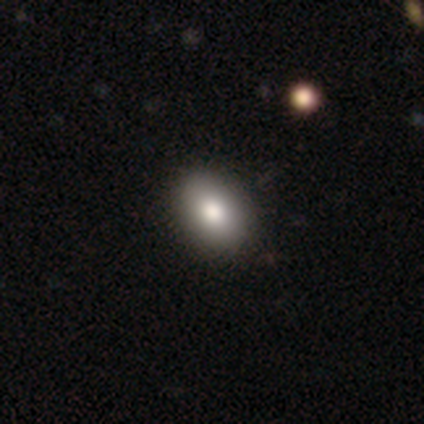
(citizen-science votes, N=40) Smooth or featured?
  - smooth: 90% *
  - featured or disk: 10%
  - star or artifact: 0%
How rounded?
  - in between: 86% *
  - round: 14%
  - cigar-shaped: 0%
Merging?
  - none: 57% *
  - minor disturbance: 8%
  - merger: 2%
  - major disturbance: 0%